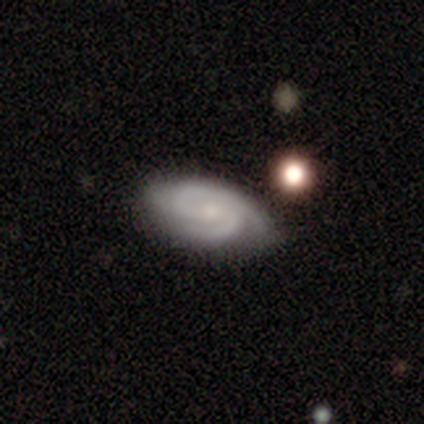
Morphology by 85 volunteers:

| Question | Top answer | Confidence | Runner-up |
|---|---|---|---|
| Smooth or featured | featured or disk | 92% | star or artifact (5%) |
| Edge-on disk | no | 94% | yes (6%) |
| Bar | no | 59% | weak (36%) |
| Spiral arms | yes | 97% | no (3%) |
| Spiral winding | tight | 61% | medium (37%) |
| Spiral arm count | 2 | 68% | 3 (20%) |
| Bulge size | small | 66% | moderate (23%) |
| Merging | none | 80% | minor disturbance (16%) |